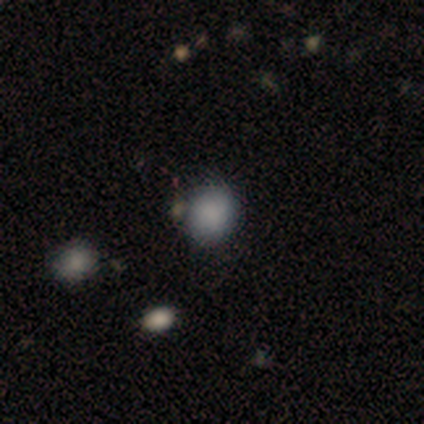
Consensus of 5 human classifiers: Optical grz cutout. It shows a smooth galaxy with no disk features (80%) that is round (100%). Merging: merger (50%).